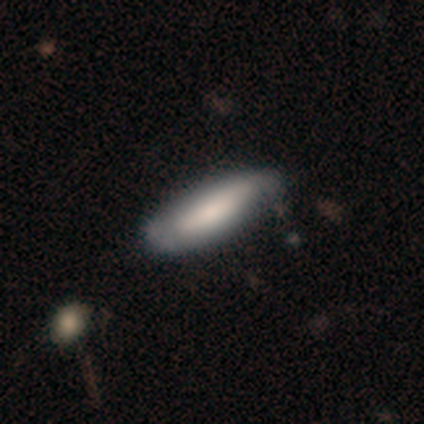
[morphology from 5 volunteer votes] Volunteers were most divided on "merging": none: 60%, minor disturbance: 20%, major disturbance: 20%, merger: 0%. More confident: smooth or featured — smooth (100%); how rounded — in between (80%).